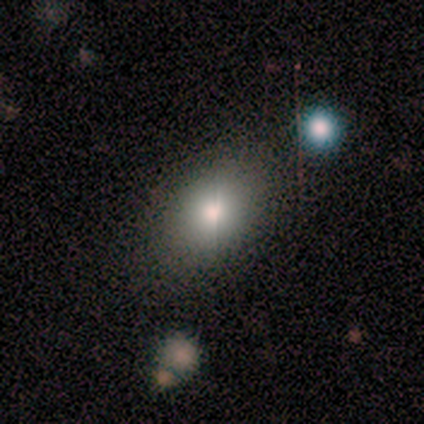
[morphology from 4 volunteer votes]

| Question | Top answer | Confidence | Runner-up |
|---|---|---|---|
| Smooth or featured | smooth | 100% | — |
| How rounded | in between | 75% | round (25%) |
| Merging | none | 100% | — |